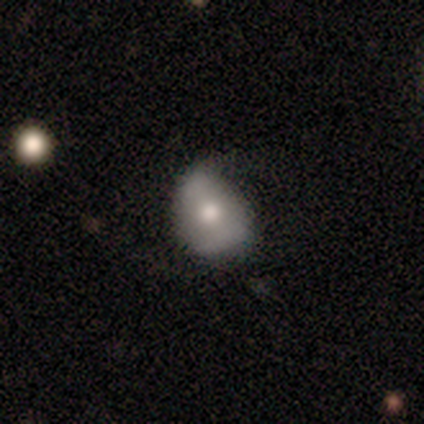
Q: Smooth or featured?
A: smooth (50%); runner-up: featured or disk (25%)
Q: How rounded?
A: round (100%)
Q: Merging?
A: none (33%); tied with: minor disturbance (33%); major disturbance (33%)